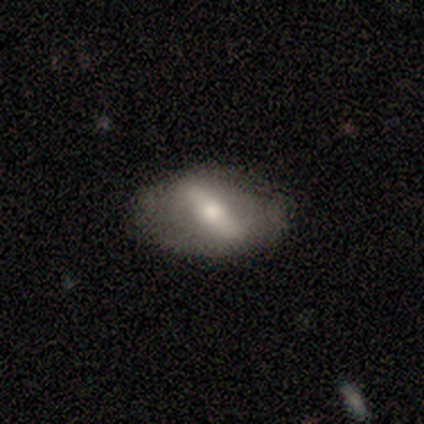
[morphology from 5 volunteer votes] smooth_or_featured: featured or disk (p=1.00)
disk_edge_on: no (p=0.80) [alt: yes p=0.20]
bar: strong (p=1.00)
has_spiral_arms: yes (p=0.75) [alt: no p=0.25]
spiral_winding: tight (p=0.33) [tied with: medium p=0.33, loose p=0.33]
spiral_arm_count: 2 (p=0.67) [alt: 1 p=0.33]
bulge_size: moderate (p=0.50) [alt: large p=0.25]
merging: none (p=0.80) [alt: major disturbance p=0.20]